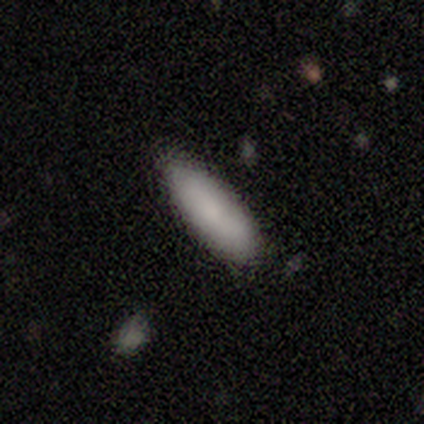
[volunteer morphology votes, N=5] Q: Smooth or featured?
A: smooth (100%)
Q: How rounded?
A: in between (80%); runner-up: cigar-shaped (20%)
Q: Merging?
A: none (100%)